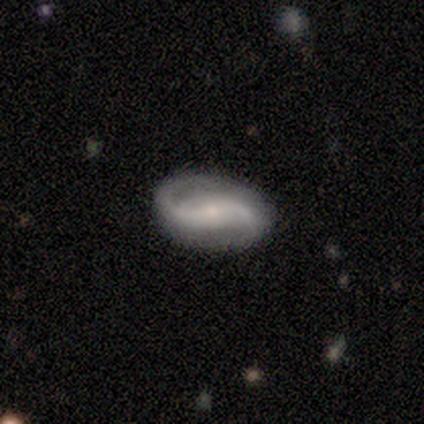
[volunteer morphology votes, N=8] Smooth or featured?
  - featured or disk: 100% *
  - smooth: 0%
  - star or artifact: 0%
Edge-on disk?
  - no: 100% *
  - yes: 0%
Bar?
  - strong: 50% *
  - no: 38%
  - weak: 12%
Spiral arms?
  - yes: 100% *
  - no: 0%
Spiral winding?
  - loose: 75% *
  - medium: 25%
  - tight: 0%
Spiral arm count?
  - 2: 100% *
  - 1: 0%
  - 3: 0%
  - 4: 0%
  - more than 4: 0%
  - can't tell: 0%
Bulge size?
  - small: 62% *
  - moderate: 38%
  - dominant: 0%
  - large: 0%
  - none: 0%
Merging?
  - none: 100% *
  - minor disturbance: 0%
  - major disturbance: 0%
  - merger: 0%